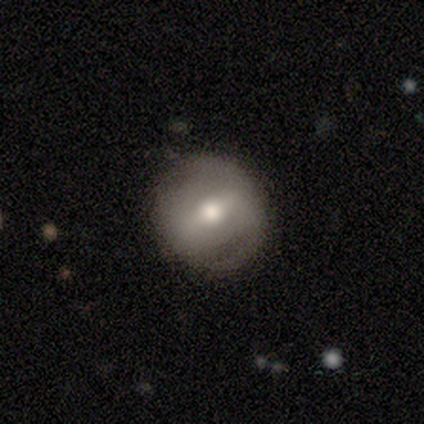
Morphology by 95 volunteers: This is possibly a smooth galaxy (45%, tied with featured or disk). How rounded: clearly round (95%). Merging: clearly none (84%).